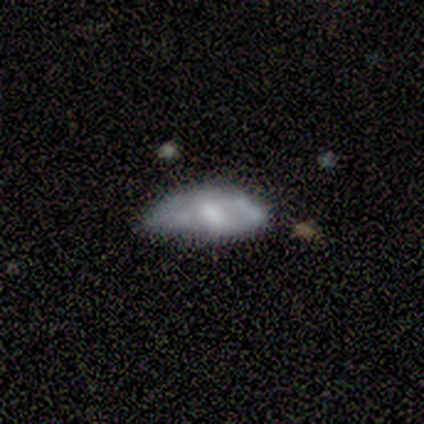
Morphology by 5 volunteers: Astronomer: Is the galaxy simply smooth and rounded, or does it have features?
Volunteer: smooth — 60% (runner-up: featured or disk, 40%).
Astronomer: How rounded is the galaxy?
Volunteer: in between — 100%.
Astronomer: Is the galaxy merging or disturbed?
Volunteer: major disturbance — 60%.